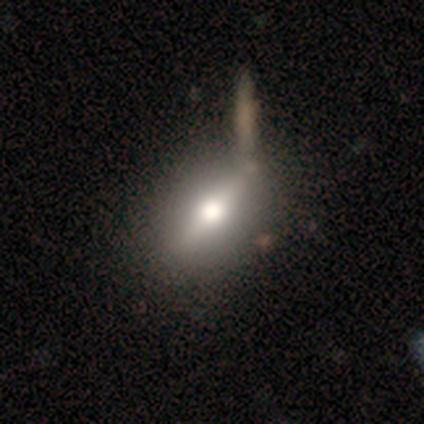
smooth_or_featured: featured or disk (p=0.60) [alt: smooth p=0.20]
disk_edge_on: yes (p=1.00)
edge_on_bulge: rounded (p=1.00)
merging: none (p=1.00)